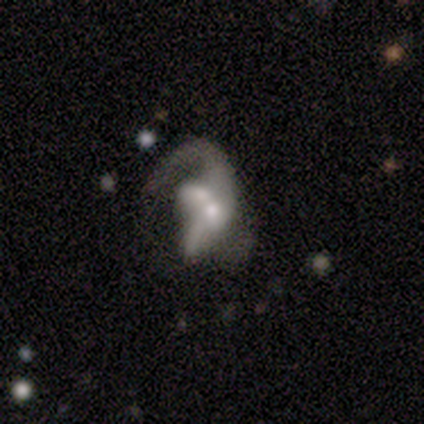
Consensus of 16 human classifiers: Overall: featured or disk (81%). Edge-on disk: no (100%). Bar: no (62%; weak 23%). Spiral arms: yes (69%; no 31%). Spiral arm count: 1 (56%; 2 22%). Spiral winding: loose (78%). Bulge size: moderate (38%, tied with small). Merging: merger (60%; major disturbance 20%).